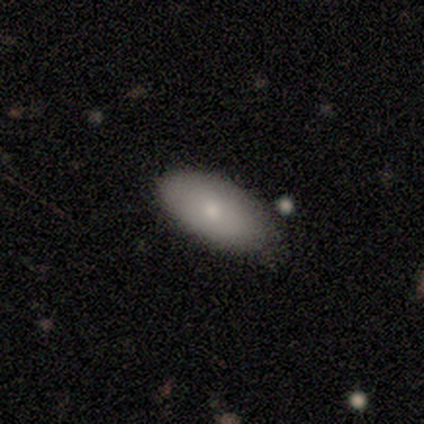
Smooth or featured? 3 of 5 (60%) said smooth. How rounded? 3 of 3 (100%) said in between. Merging? 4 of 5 (80%) said none.